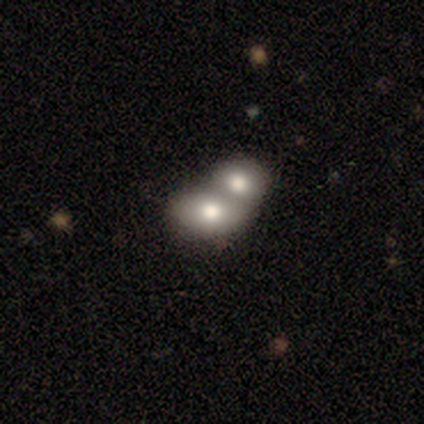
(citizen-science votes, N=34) Volunteers were most divided on "smooth or featured": smooth: 71%, featured or disk: 21%, star or artifact: 9%. More confident: how rounded — in between (79%); merging — merger (74%).